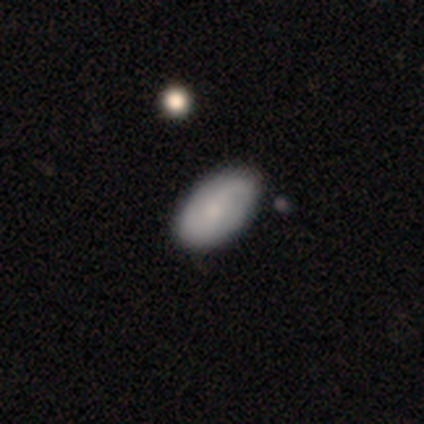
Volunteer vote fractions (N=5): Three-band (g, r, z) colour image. It shows a smooth galaxy with no disk features (100%) that is in between round and cigar-shaped (80%). Merging: none (80%).